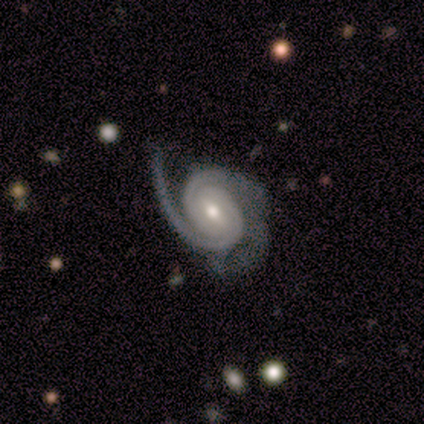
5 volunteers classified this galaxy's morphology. Q: Smooth or featured?
A: featured or disk (100%)
Q: Edge-on disk?
A: no (100%)
Q: Bar?
A: strong (60%); runner-up: weak (20%)
Q: Spiral arms?
A: yes (100%)
Q: Spiral winding?
A: tight (60%); runner-up: medium (40%)
Q: Spiral arm count?
A: 2 (80%); runner-up: 3 (20%)
Q: Bulge size?
A: moderate (60%); runner-up: small (40%)
Q: Merging?
A: none (60%); runner-up: minor disturbance (40%)